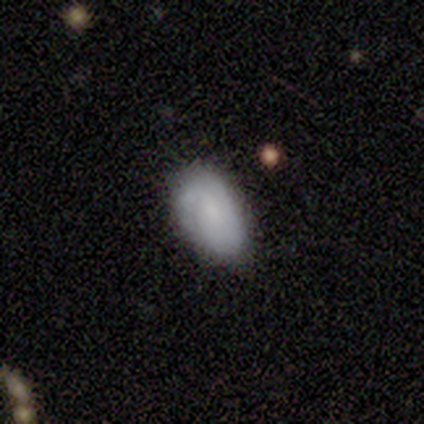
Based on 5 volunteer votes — A smooth galaxy with no disk features (60%) that is in between round and cigar-shaped (67%). Merging: none (60%).